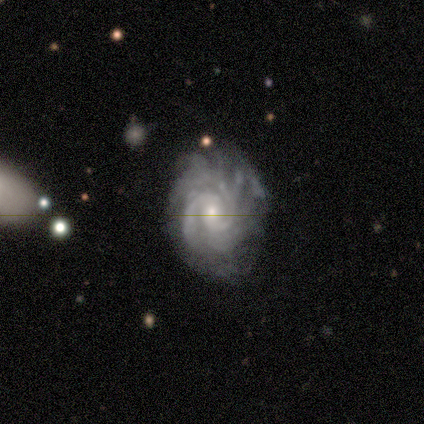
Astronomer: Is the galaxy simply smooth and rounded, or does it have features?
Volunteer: featured or disk — 80%.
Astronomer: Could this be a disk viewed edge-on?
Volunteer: no — 100%.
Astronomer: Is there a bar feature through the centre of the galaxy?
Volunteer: weak — 50%, tied with no at 50%.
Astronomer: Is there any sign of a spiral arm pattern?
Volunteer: yes — 100%.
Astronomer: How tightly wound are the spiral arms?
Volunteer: tight — 75%.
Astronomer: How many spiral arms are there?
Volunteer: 2 — 75%.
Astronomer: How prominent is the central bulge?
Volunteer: moderate — 50%, tied with small at 50%.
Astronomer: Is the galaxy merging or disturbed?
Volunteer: none — 75%.